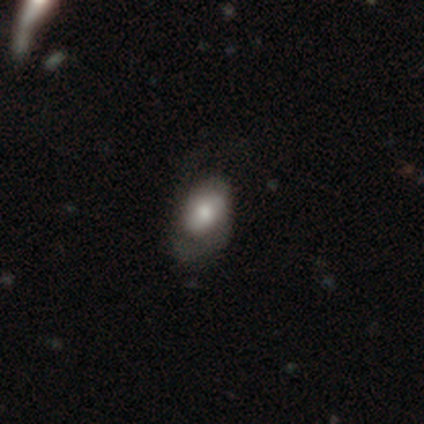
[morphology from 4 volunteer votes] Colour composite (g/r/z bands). It shows a smooth galaxy with no disk features (75%) that is in between round and cigar-shaped (67%). Merging: none (75%).